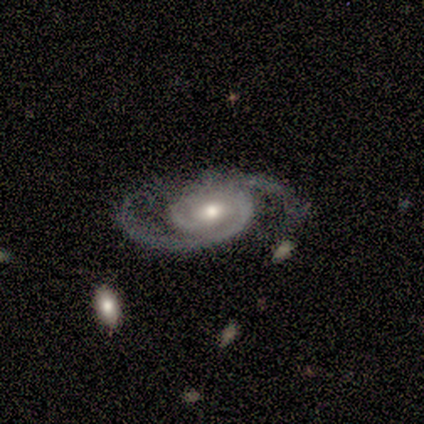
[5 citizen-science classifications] This appears to be a featured or disk galaxy (100%) with no bar (100%), 2 (100%) medium (60%) spiral arms (100%) and a moderate central bulge (80%). Merging: none (60%).